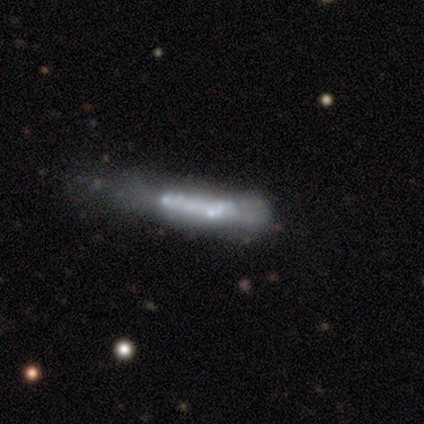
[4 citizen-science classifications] featured or disk 50%, smooth 25%, star or artifact 25%. Down the decision tree: edge-on disk — yes (50%, tied with no); edge-on bulge — boxy (100%); merging — minor disturbance (33%, tied with major disturbance and merger).